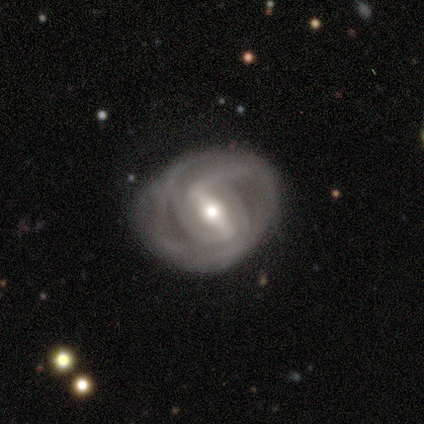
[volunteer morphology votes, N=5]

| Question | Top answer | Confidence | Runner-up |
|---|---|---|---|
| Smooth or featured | featured or disk | 100% | — |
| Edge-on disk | no | 80% | yes (20%) |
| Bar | strong | 100% | — |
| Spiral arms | yes | 100% | — |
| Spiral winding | tight | 50% | tied: loose (50%) |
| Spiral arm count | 2 | 50% | tied: can't tell (50%) |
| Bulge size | moderate | 75% | large (25%) |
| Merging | none | 80% | major disturbance (20%) |